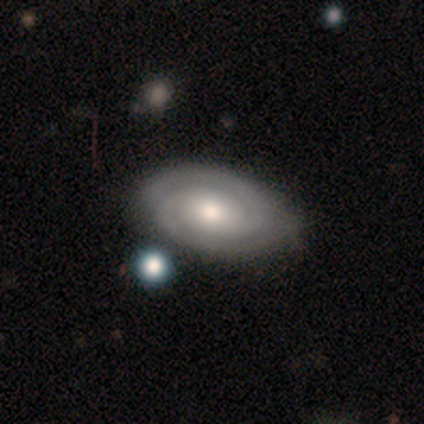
featured or disk 83%, smooth 10%, star or artifact 7%. Down the decision tree: edge-on disk — no (100%); bar — no (71%); spiral arms — yes (96%); spiral arm count — 2 (89%); spiral winding — tight (80%); bulge size — moderate (46%); merging — none (72%).